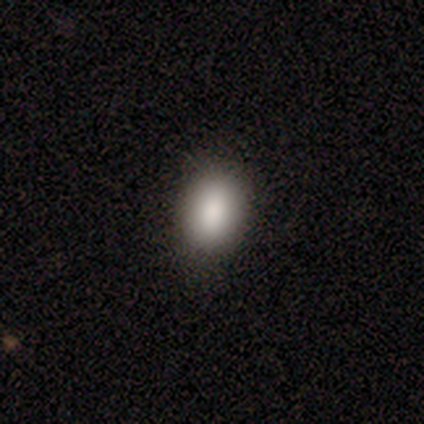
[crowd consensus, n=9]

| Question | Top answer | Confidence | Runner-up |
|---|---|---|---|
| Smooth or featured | smooth | 89% | star or artifact (11%) |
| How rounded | in between | 88% | round (12%) |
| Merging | none | 100% | — |